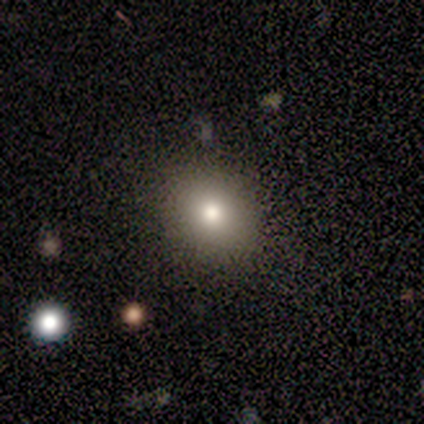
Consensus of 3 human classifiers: Overall: smooth (100%). How rounded: round (67%; in between 33%). Merging: none (100%).